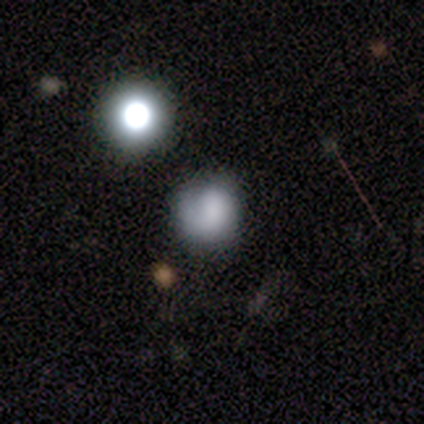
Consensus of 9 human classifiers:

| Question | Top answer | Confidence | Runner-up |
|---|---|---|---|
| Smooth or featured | smooth | 89% | star or artifact (11%) |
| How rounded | round | 88% | in between (12%) |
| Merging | none | 62% | minor disturbance (25%) |